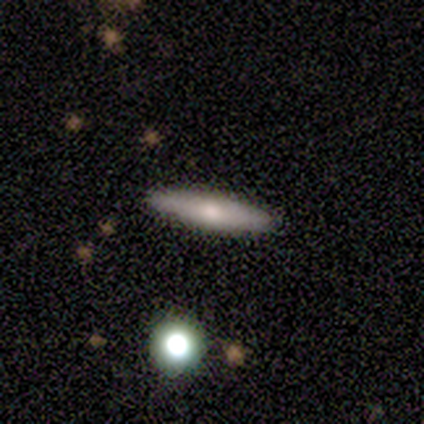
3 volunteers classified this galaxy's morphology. smooth-or-featured: smooth: 67% | featured or disk: 33% | star or artifact: 0%
  how-rounded: cigar-shaped: 100% | round: 0% | in between: 0%
  merging: none: 100% | minor disturbance: 0% | major disturbance: 0% | merger: 0%